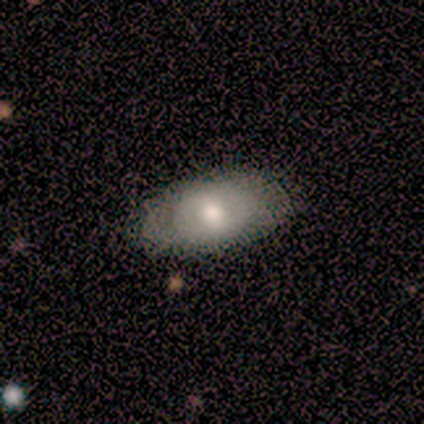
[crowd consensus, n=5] This appears to be a smooth galaxy with no disk features (60%) that is in between round and cigar-shaped (100%). Merging: none (60%).